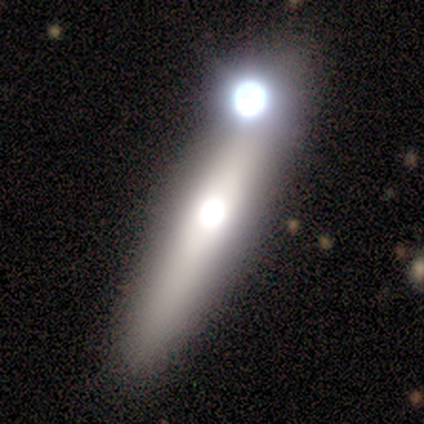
Volunteers were most divided on "smooth or featured": featured or disk: 80%, smooth: 20%, star or artifact: 0%. More confident: edge-on disk — yes (100%); edge-on bulge — rounded (100%); merging — none (80%).